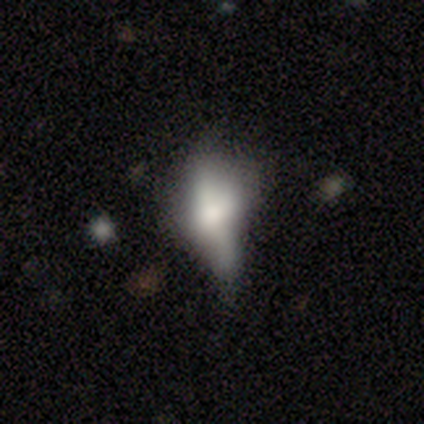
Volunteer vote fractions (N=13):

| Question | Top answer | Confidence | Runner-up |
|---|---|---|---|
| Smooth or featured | featured or disk | 46% | smooth (38%) |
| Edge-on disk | yes | 50% | tied: no (50%) |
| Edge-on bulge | rounded | 100% | — |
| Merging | none | 45% | tied: minor disturbance (45%) |